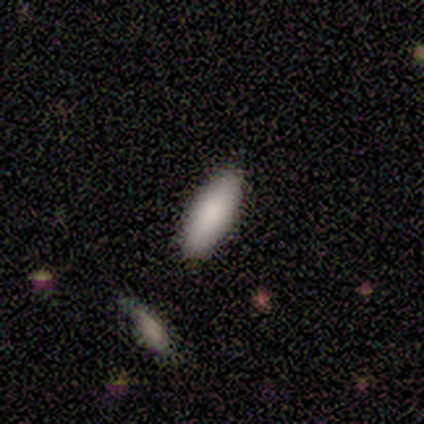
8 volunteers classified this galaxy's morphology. A smooth galaxy with no disk features (100%) that is in between round and cigar-shaped (88%).

Vote fractions:
- Smooth or featured? smooth: 100% / featured or disk: 0% / star or artifact: 0%
- How rounded? in between: 88% / cigar-shaped: 12% / round: 0%
- Merging? none: 88% / major disturbance: 12% / minor disturbance: 0% / merger: 0%